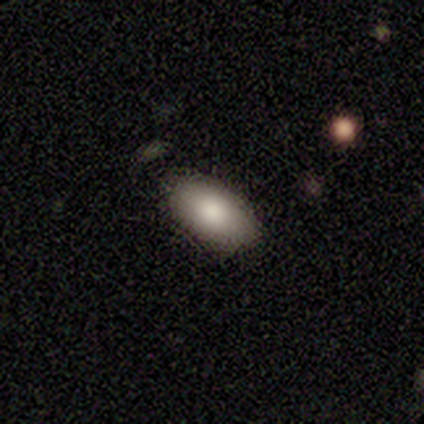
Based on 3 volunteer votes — Morphology: type=smooth (67%); roundness=in between (100%); merging=none (100%).